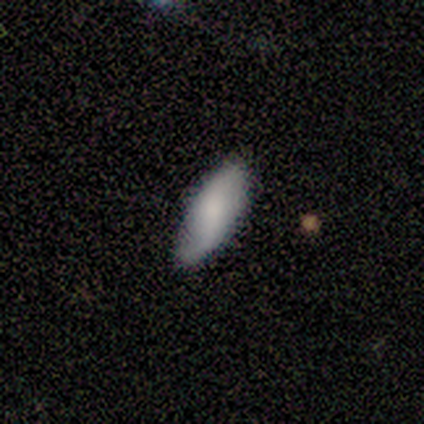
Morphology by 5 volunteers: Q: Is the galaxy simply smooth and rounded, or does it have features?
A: smooth — 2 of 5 (40%, tied with featured or disk).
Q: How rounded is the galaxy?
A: in between — 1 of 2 (50%, tied with cigar-shaped).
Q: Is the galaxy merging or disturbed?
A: none — 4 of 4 (100%).